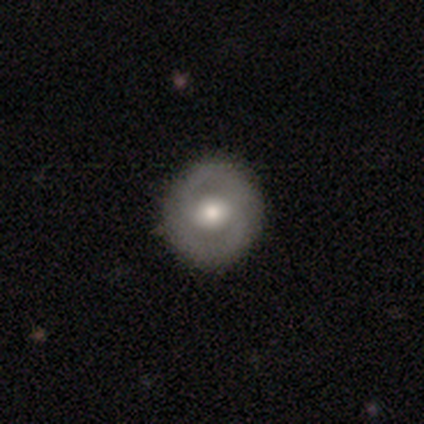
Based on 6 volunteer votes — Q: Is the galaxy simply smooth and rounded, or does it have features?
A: featured or disk — 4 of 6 (67%).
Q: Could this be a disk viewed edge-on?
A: no — 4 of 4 (100%).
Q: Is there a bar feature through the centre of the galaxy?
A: no — 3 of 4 (75%).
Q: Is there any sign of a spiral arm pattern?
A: yes — 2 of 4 (50%, tied with no).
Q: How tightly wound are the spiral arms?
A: tight — 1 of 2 (50%, tied with medium).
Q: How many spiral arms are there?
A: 2 — 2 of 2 (100%).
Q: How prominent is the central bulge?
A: moderate — 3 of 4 (75%).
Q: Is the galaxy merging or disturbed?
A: none — 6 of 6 (100%).